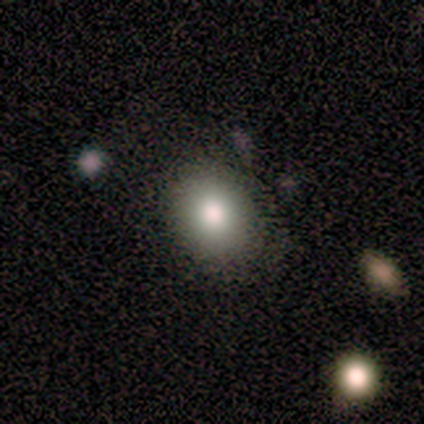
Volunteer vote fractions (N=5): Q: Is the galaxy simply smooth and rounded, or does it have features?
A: smooth — 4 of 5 (80%).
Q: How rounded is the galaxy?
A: round — 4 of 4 (100%).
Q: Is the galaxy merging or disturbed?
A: none — 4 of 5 (80%).